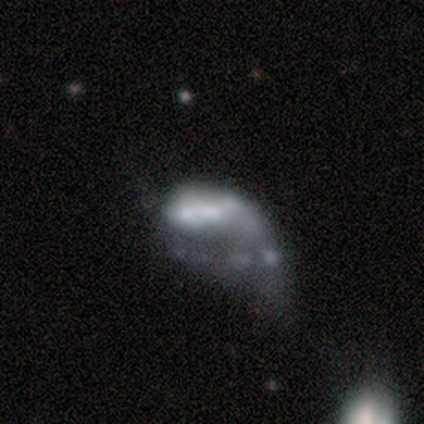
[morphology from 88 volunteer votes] Overall: featured or disk (62%; smooth 26%). Edge-on disk: no (100%). Bar: no (76%). Spiral arms: no (85%). Bulge size: moderate (29%; none 27%). Merging: major disturbance (59%).